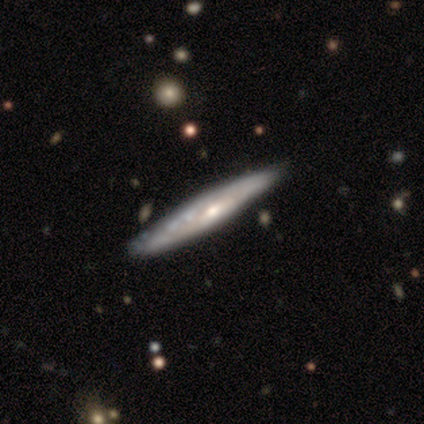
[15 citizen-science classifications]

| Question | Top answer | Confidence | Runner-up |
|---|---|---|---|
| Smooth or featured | featured or disk | 80% | smooth (20%) |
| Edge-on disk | yes | 75% | no (25%) |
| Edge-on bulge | rounded | 67% | none (33%) |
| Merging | none | 80% | minor disturbance (20%) |